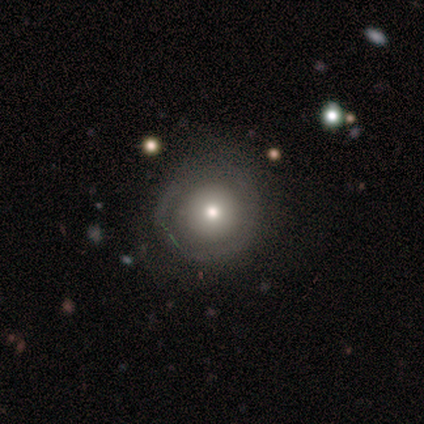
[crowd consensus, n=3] Q: Smooth or featured?
A: smooth (67%); runner-up: featured or disk (33%)
Q: How rounded?
A: round (100%)
Q: Merging?
A: none (100%)